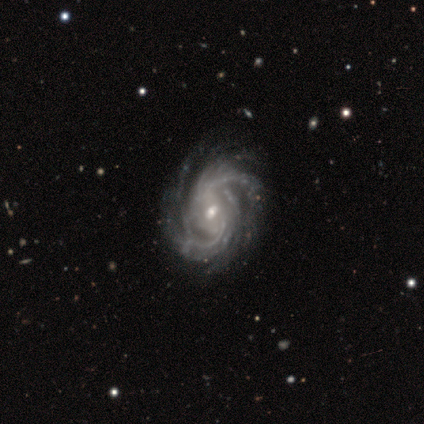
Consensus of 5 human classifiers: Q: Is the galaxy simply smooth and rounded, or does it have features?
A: featured or disk — 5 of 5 (100%).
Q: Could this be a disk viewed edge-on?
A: no — 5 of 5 (100%).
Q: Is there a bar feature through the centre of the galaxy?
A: weak — 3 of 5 (60%).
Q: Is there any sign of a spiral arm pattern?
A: yes — 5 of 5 (100%).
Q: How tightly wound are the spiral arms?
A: tight — 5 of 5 (100%).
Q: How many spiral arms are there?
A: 2 — 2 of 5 (40%).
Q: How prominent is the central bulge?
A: moderate — 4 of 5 (80%).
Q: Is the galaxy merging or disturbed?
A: none — 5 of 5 (100%).